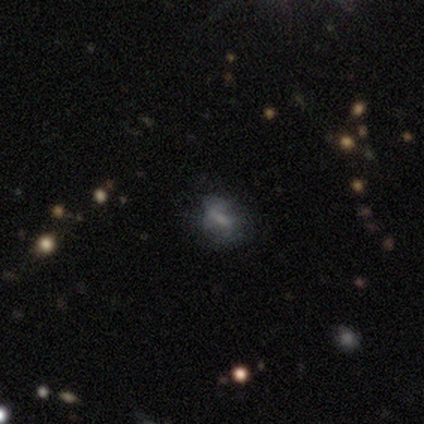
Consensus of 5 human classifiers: Smooth or featured? smooth (80%)
How rounded? round (50%, tied with in between)
Merging? none (75%)